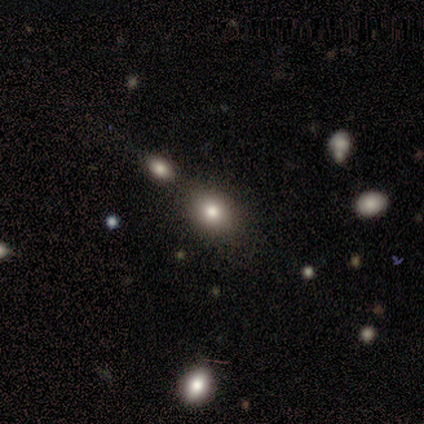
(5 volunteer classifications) smooth_or_featured: smooth (p=1.00)
how_rounded: round (p=0.80) [alt: in between p=0.20]
merging: none (p=0.60) [alt: minor disturbance p=0.40]